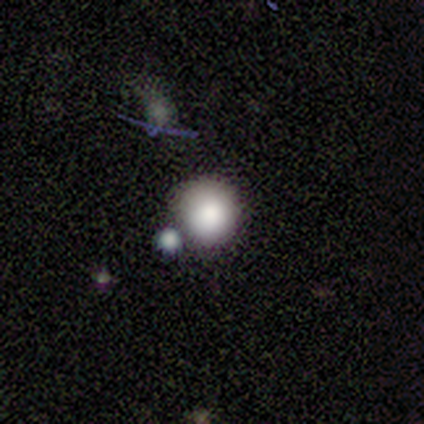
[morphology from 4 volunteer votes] This appears to be a smooth galaxy with no disk features (75%) that is round (100%). Merging: none (50%).